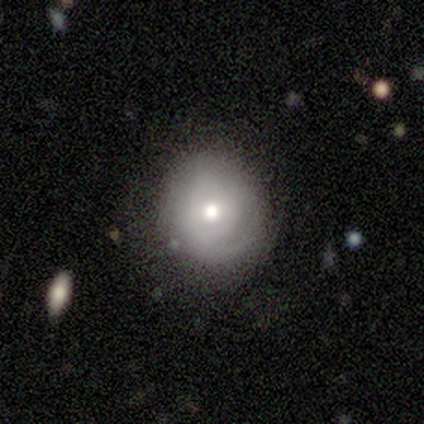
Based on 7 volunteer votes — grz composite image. It shows a smooth galaxy with no disk features (71%) that is round (100%). Merging: none (83%).